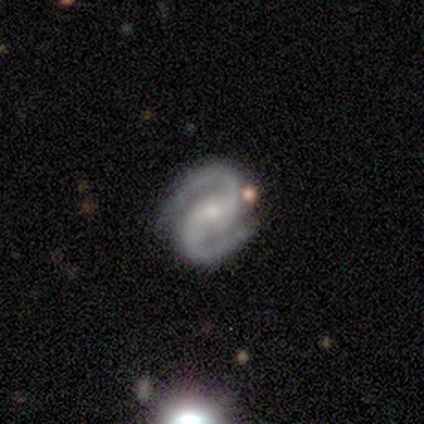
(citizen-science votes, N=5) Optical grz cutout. It shows a featured or disk galaxy (100%) with a strong bar (40%, tied with no), 2 (100%) medium (60%) spiral arms (100%) and a small central bulge (60%). Merging: none (80%).